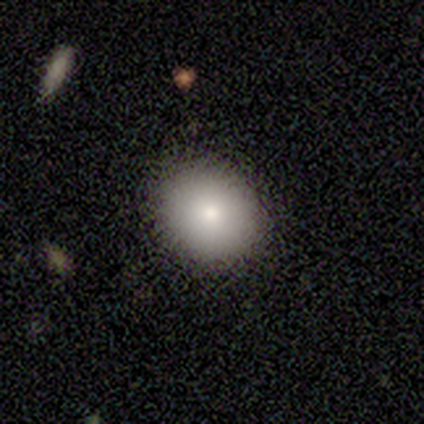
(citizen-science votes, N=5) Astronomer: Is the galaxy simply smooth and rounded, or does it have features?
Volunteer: smooth — 80%.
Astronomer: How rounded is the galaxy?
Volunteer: round — 75%.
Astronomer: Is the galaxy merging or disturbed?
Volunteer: none — 100%.